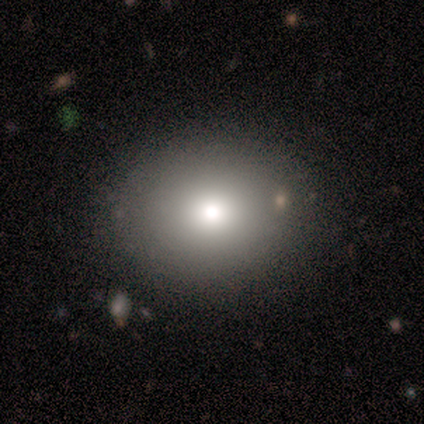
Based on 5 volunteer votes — A smooth galaxy with no disk features (80%) that is round (50%, tied with in between).

Vote fractions:
- Smooth or featured? smooth: 80% / featured or disk: 20% / star or artifact: 0%
- How rounded? round: 50% (tied) / in between: 50% (tied) / cigar-shaped: 0%
- Merging? none: 100% / minor disturbance: 0% / major disturbance: 0% / merger: 0%